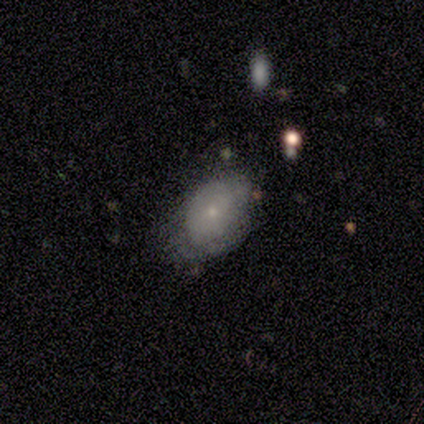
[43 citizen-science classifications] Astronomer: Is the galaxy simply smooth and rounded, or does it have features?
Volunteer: featured or disk — 53% (runner-up: smooth, 40%).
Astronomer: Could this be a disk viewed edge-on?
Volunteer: no — 96%.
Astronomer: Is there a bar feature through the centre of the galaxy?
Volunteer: no — 95%.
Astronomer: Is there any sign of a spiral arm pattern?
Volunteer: yes — 59% (runner-up: no, 41%).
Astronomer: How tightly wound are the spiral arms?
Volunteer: tight — 77%.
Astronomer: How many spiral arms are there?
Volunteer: can't tell — 92%.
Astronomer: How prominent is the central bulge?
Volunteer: small — 82%.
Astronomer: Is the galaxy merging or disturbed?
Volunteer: none — 40%, tied with minor disturbance at 40%.